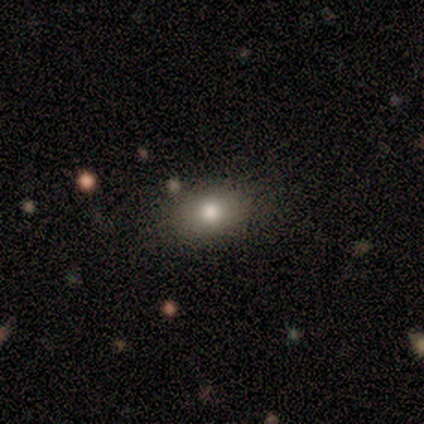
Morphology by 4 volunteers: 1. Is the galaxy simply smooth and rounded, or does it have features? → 75% smooth, 25% featured or disk, 0% star or artifact.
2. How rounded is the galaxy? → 67% in between, 33% round, 0% cigar-shaped.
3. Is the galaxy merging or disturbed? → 75% none, 25% minor disturbance, 0% major disturbance, 0% merger.